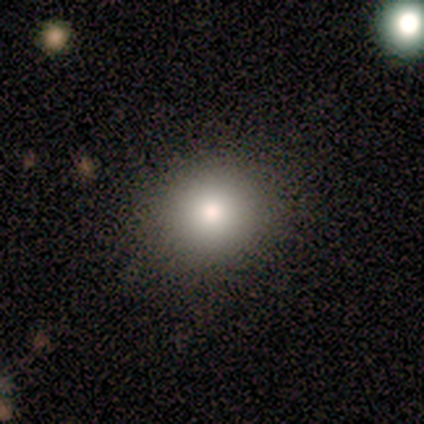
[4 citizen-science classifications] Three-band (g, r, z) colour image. It shows a smooth galaxy with no disk features (100%) that is round (75%). Merging: none (100%).